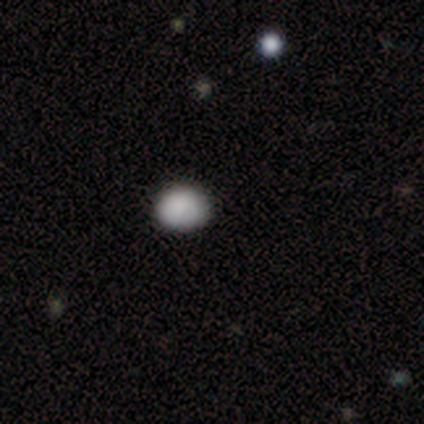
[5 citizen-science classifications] smooth 80%, star or artifact 20%, featured or disk 0%. Down the decision tree: how rounded — in between (75%); merging — none (75%).